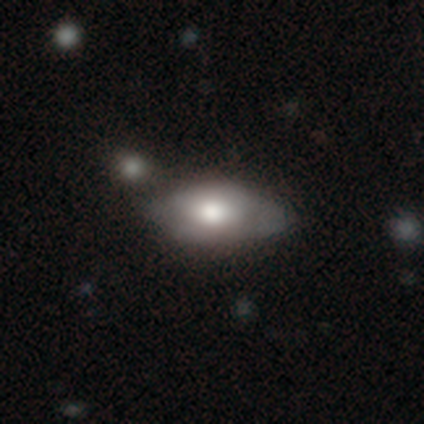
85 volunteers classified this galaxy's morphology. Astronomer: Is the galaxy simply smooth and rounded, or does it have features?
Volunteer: smooth — 68%.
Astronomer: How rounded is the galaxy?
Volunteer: in between — 91%.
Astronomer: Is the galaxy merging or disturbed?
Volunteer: none — 57%.